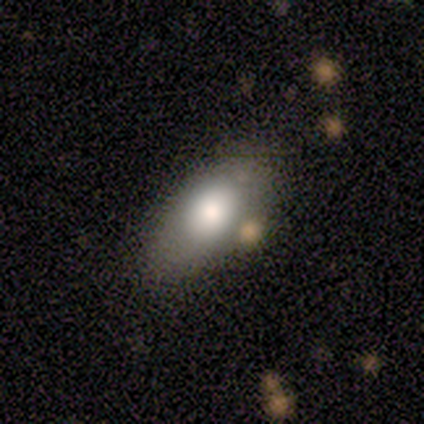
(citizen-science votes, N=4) smooth-or-featured: smooth: 75% | featured or disk: 25% | star or artifact: 0%
  how-rounded: in between: 100% | round: 0% | cigar-shaped: 0%
  merging: none: 75% | major disturbance: 25% | minor disturbance: 0% | merger: 0%